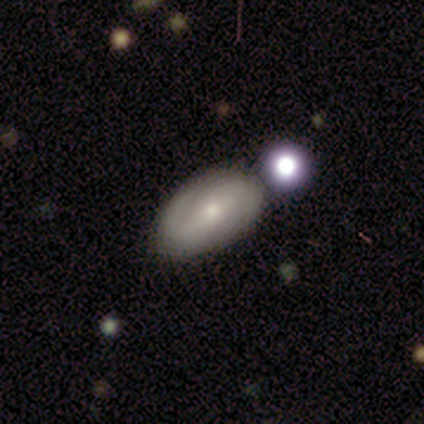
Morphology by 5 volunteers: Smooth or featured?
  - smooth: 40% * (tied)
  - featured or disk: 40% * (tied)
  - star or artifact: 20%
How rounded?
  - in between: 100% *
  - round: 0%
  - cigar-shaped: 0%
Merging?
  - minor disturbance: 50% *
  - major disturbance: 25%
  - merger: 25%
  - none: 0%